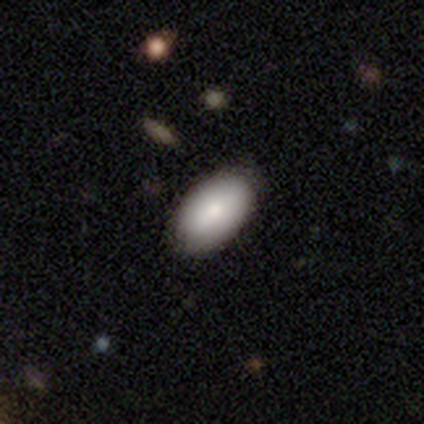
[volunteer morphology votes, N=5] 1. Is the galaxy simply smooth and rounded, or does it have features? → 100% smooth, 0% featured or disk, 0% star or artifact.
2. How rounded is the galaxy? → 100% in between, 0% round, 0% cigar-shaped.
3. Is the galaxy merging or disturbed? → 100% none, 0% minor disturbance, 0% major disturbance, 0% merger.